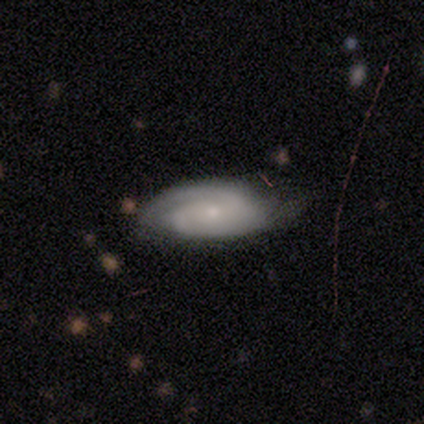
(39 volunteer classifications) Smooth or featured?
  - featured or disk: 77% *
  - smooth: 21%
  - star or artifact: 3%
Edge-on disk?
  - no: 93% *
  - yes: 7%
Bar?
  - no: 57% *
  - weak: 32%
  - strong: 11%
Spiral arms?
  - yes: 100% *
  - no: 0%
Spiral winding?
  - tight: 64% *
  - medium: 32%
  - loose: 4%
Spiral arm count?
  - 2: 82% *
  - 1: 7%
  - can't tell: 7%
  - 3: 4%
  - 4: 0%
  - more than 4: 0%
Bulge size?
  - small: 93% *
  - moderate: 4%
  - none: 4%
  - dominant: 0%
  - large: 0%
Merging?
  - none: 66% *
  - minor disturbance: 13%
  - merger: 5%
  - major disturbance: 3%